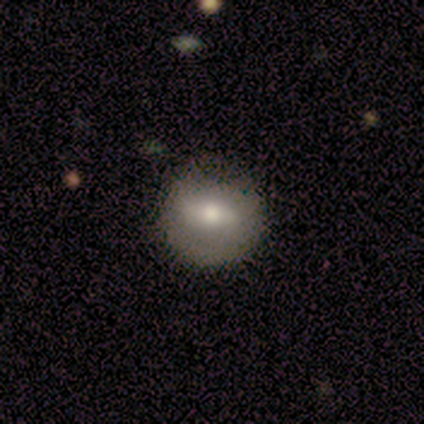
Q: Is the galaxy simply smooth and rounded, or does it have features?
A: smooth — 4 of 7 (57%).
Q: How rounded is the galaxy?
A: round — 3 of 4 (75%).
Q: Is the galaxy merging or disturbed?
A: none — 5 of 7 (71%).